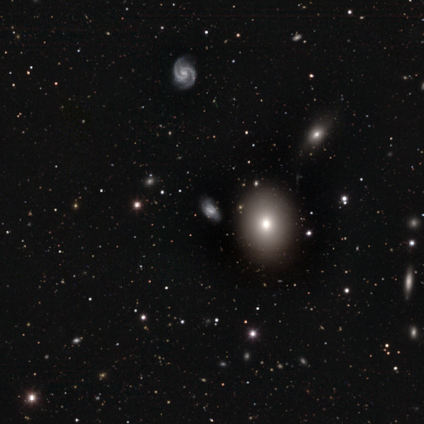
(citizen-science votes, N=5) Smooth or featured?
  - smooth: 40% * (tied)
  - featured or disk: 40% * (tied)
  - star or artifact: 20%
How rounded?
  - round: 50% * (tied)
  - in between: 50% * (tied)
  - cigar-shaped: 0%
Merging?
  - none: 75% *
  - minor disturbance: 25%
  - major disturbance: 0%
  - merger: 0%